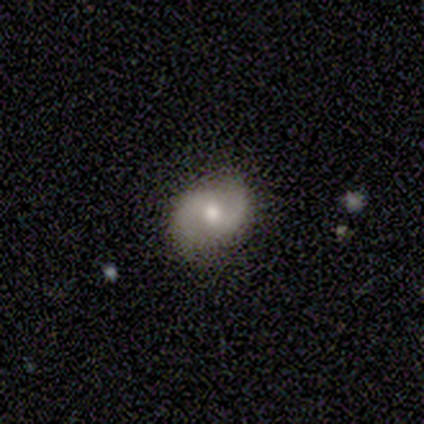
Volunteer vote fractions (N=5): A featured or disk galaxy (100%) with no bar (60%), 2 (100%) medium (60%) spiral arms (100%) and a large central bulge (40%, tied with small). Merging: none (100%).